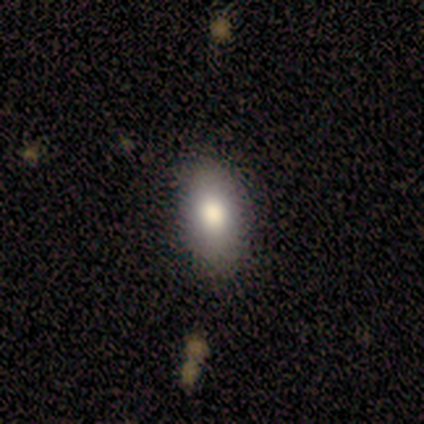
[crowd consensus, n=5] Smooth or featured?
  - smooth: 80% *
  - featured or disk: 20%
  - star or artifact: 0%
How rounded?
  - in between: 100% *
  - round: 0%
  - cigar-shaped: 0%
Merging?
  - none: 60% *
  - minor disturbance: 20%
  - major disturbance: 20%
  - merger: 0%